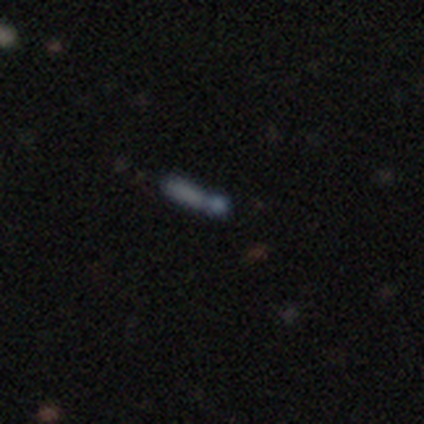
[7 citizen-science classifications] Smooth or featured: star or artifact — 57% (smooth — 29%)